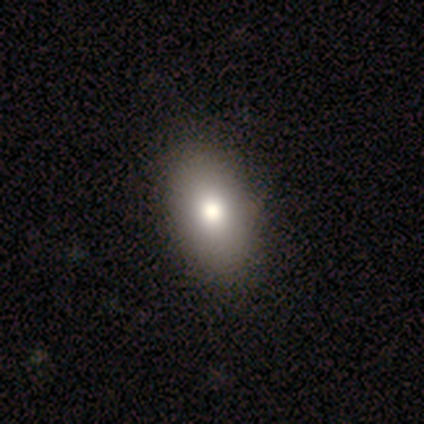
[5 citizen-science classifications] Morphology: type=smooth (80%); roundness=in between (100%); merging=none (75%).